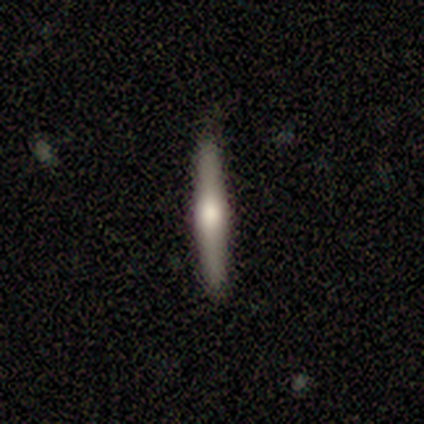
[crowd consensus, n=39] A smooth galaxy with no disk features (51%) that is cigar-shaped (100%).

Vote fractions:
- Smooth or featured? smooth: 51% / featured or disk: 41% / star or artifact: 8%
- How rounded? cigar-shaped: 100% / round: 0% / in between: 0%
- Merging? none: 92% / minor disturbance: 3% / major disturbance: 3% / merger: 3%